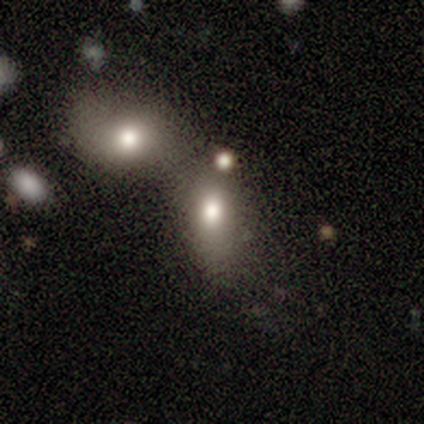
Volunteers were most divided on "merging": merger: 50%, none: 33%, minor disturbance: 17%, major disturbance: 0%. More confident: how rounded — in between (100%); smooth or featured — smooth (67%).